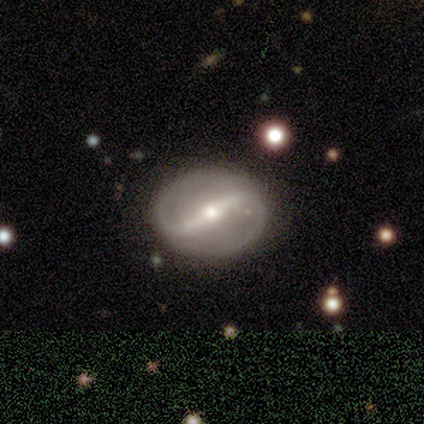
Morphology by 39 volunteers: Overall: featured or disk (90%). Edge-on disk: no (97%). Bar: strong (76%). Spiral arms: yes (74%). Spiral arm count: 2 (96%). Spiral winding: medium (52%; loose 28%). Bulge size: moderate (59%; small 38%). Merging: none (63%).